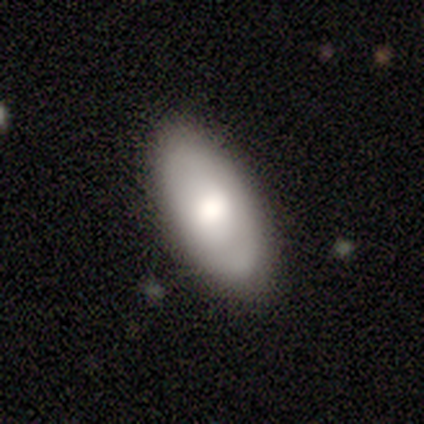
smooth-or-featured: smooth: 78% | featured or disk: 15% | star or artifact: 8%
  how-rounded: in between: 94% | round: 3% | cigar-shaped: 3%
  merging: none: 78% | minor disturbance: 14% | major disturbance: 8% | merger: 0%